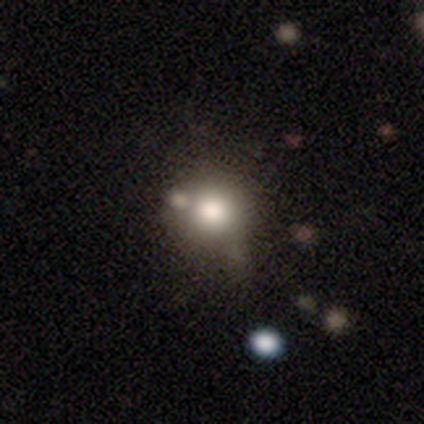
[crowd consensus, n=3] Smooth or featured? smooth (33%, tied with featured or disk and star or artifact)
How rounded? round (100%)
Merging? none (100%)